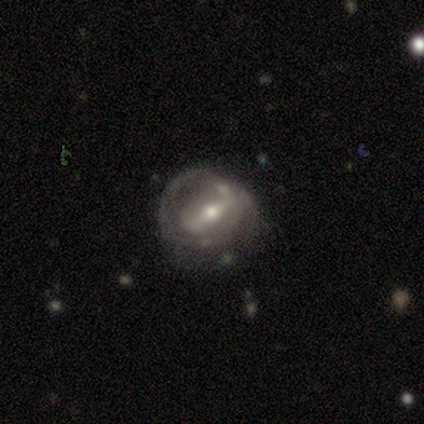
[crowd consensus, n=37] Smooth or featured: featured or disk — 84% (smooth — 8%)
Edge-on disk: no — 97% (yes — 3%)
Bar: weak — 37% (strong — 33%)
Spiral arms: yes — 63% (no — 37%)
Spiral winding: loose — 42% (tight — 37%)
Spiral arm count: can't tell — 53% (2 — 32%)
Bulge size: moderate — 70% (small — 27%)
Merging: minor disturbance — 35% (none — 32%)